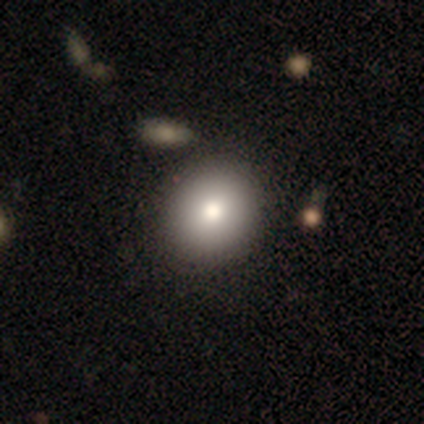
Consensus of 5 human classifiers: Smooth or featured? smooth (80%)
How rounded? round (75%)
Merging? none (75%)